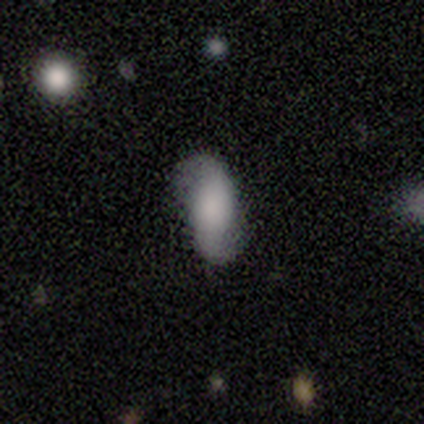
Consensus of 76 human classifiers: smooth_or_featured: featured or disk (p=0.54) [alt: smooth p=0.33]
disk_edge_on: no (p=0.98) [alt: yes p=0.02]
bar: no (p=0.57) [alt: strong p=0.25]
has_spiral_arms: yes (p=0.93) [alt: no p=0.07]
spiral_winding: loose (p=0.57) [alt: medium p=0.27]
spiral_arm_count: 2 (p=0.97) [alt: can't tell p=0.03]
bulge_size: none (p=0.40) [alt: large p=0.28]
merging: none (p=0.80) [alt: minor disturbance p=0.17]